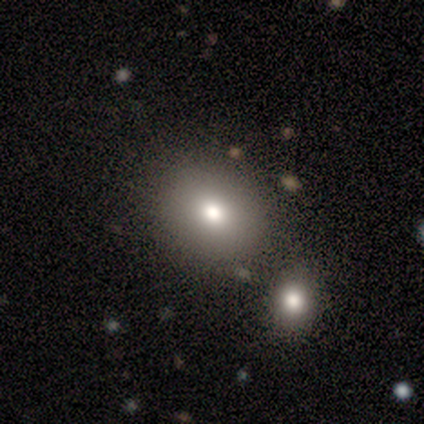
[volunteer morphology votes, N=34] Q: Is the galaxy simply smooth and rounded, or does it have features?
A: smooth — 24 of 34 (71%).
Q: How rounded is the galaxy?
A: round — 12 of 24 (50%, tied with in between).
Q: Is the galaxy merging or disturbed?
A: none — 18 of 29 (62%).